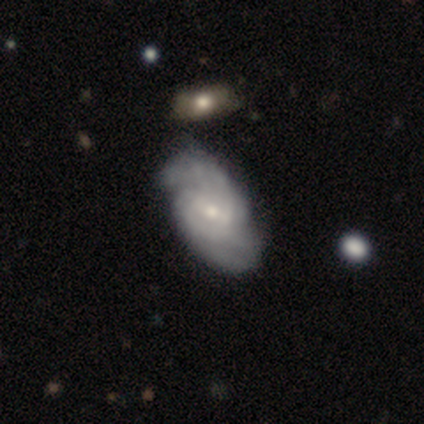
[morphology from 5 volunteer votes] A featured or disk galaxy (100%) with a weak bar (60%), 2 (75%) medium (50%) spiral arms (80%) and a small central bulge (80%). Merging: none (60%).